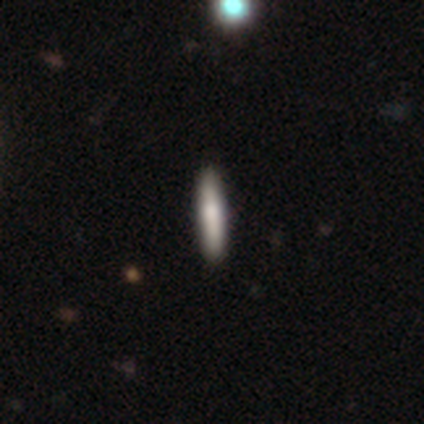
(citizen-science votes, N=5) smooth_or_featured: smooth (p=0.80) [alt: featured or disk p=0.20]
how_rounded: cigar-shaped (p=1.00)
merging: none (p=1.00)